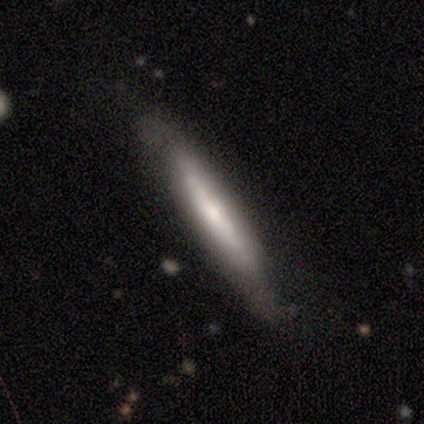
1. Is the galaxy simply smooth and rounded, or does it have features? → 75% smooth, 25% featured or disk, 0% star or artifact.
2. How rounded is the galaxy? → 100% cigar-shaped, 0% round, 0% in between.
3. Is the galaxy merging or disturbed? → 75% none, 25% minor disturbance, 0% major disturbance, 0% merger.